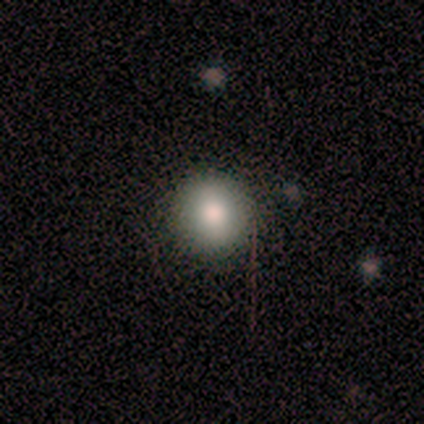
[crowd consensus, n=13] Overall: smooth (92%). How rounded: round (100%). Merging: none (100%).